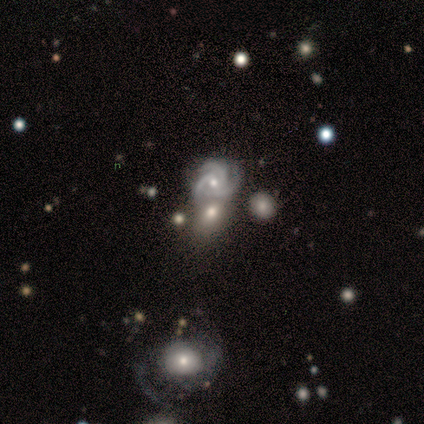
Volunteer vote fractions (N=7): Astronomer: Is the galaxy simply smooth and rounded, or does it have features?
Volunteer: smooth — 43% (runner-up: featured or disk, 29%).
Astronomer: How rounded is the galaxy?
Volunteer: in between — 67%.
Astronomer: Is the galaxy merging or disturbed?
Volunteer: minor disturbance — 60% (runner-up: merger, 40%).